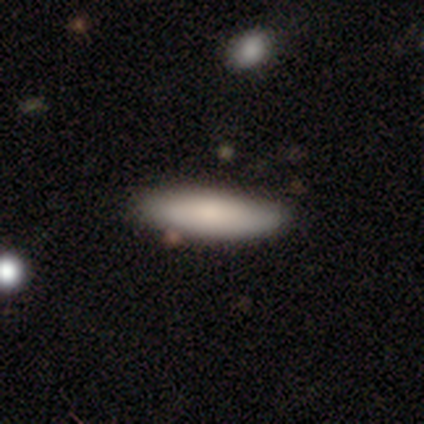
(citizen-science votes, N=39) Morphology: type=smooth (82%); roundness=cigar-shaped (66%); merging=none (82%).